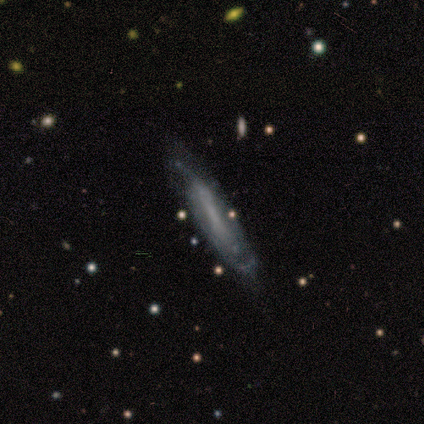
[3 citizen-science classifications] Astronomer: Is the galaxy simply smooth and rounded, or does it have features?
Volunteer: featured or disk — 100%.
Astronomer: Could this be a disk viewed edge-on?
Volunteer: yes — 67%.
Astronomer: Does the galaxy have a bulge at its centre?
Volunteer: none — 50%, tied with rounded at 50%.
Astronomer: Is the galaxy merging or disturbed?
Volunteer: none — 67%.